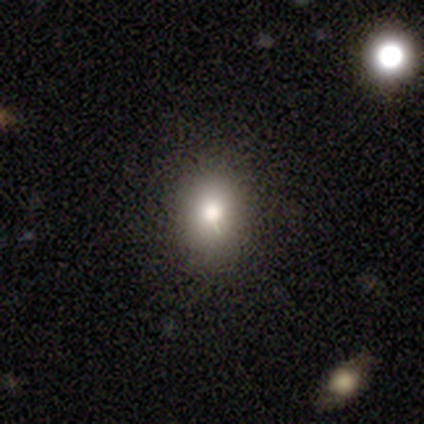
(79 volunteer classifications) Overall: smooth (80%). How rounded: in between (62%; round 38%). Merging: none (46%; minor disturbance 7%).